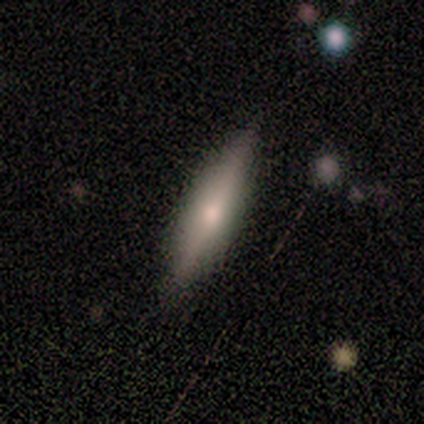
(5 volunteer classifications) smooth_or_featured: smooth (p=1.00)
how_rounded: cigar-shaped (p=0.80) [alt: in between p=0.20]
merging: none (p=0.80) [alt: minor disturbance p=0.20]